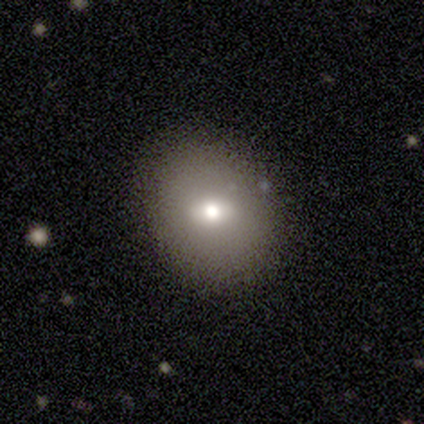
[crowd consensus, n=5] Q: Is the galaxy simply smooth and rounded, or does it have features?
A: smooth — 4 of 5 (80%).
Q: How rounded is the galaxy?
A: round — 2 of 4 (50%, tied with in between).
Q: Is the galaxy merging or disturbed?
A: none — 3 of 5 (60%).